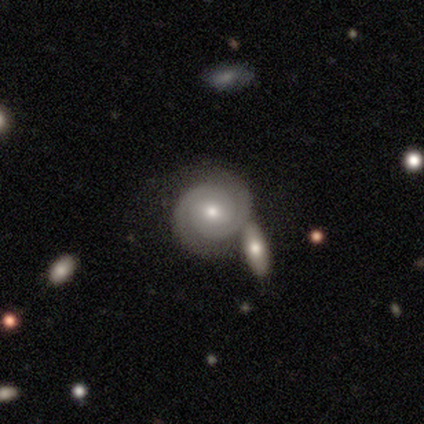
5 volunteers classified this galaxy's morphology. featured or disk 100%, smooth 0%, star or artifact 0%. Down the decision tree: edge-on disk — no (100%); bar — weak (80%); spiral arms — yes (100%); spiral arm count — 2 (100%); spiral winding — tight (80%); bulge size — moderate (60%); merging — major disturbance (40%).